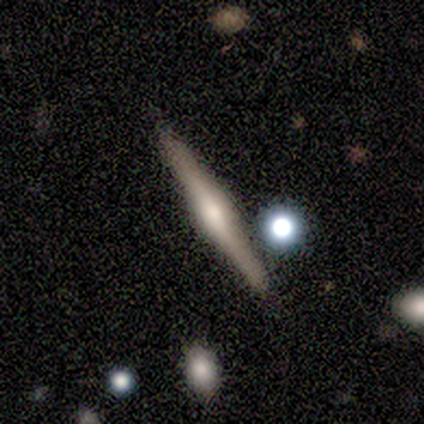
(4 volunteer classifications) Smooth or featured? featured or disk (75%)
Edge-on disk? yes (100%)
Edge-on bulge? rounded (67%)
Merging? none (100%)